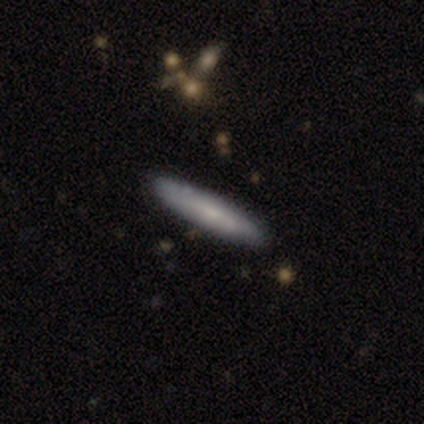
Smooth or featured? 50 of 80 (62%) said smooth. How rounded? 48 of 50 (96%) said cigar-shaped. Merging? 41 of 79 (52%) said none.